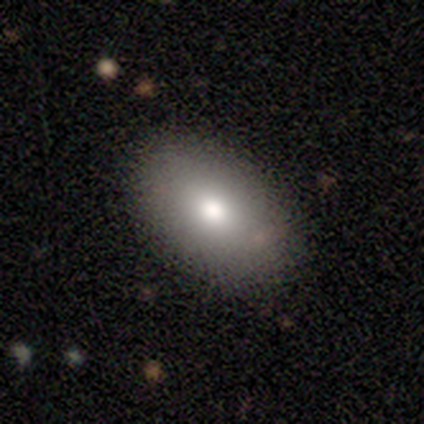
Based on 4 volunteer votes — smooth 50% (tied), star or artifact 50% (tied), featured or disk 0%. Down the decision tree: how rounded — in between (50%, tied with cigar-shaped); merging — none (50%, tied with major disturbance).